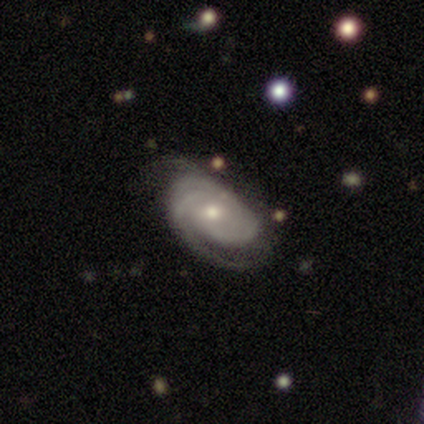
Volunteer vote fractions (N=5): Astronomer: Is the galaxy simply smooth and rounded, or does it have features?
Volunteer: featured or disk — 80%.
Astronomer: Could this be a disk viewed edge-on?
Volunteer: no — 100%.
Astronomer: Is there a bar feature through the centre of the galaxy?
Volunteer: weak — 50%, tied with no at 50%.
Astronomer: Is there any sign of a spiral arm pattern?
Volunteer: yes — 100%.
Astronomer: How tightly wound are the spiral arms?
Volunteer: tight — 50%, tied with medium at 50%.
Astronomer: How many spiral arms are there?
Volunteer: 2 — 100%.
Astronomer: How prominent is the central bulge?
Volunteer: moderate — 50%, tied with small at 50%.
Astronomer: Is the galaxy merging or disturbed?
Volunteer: none — 100%.